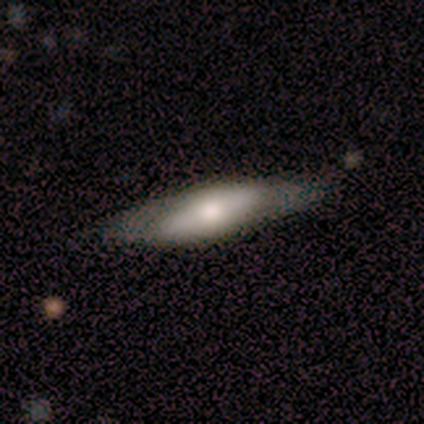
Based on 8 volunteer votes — Q: Smooth or featured?
A: smooth (75%); runner-up: featured or disk (25%)
Q: How rounded?
A: in between (67%); runner-up: cigar-shaped (33%)
Q: Merging?
A: none (75%); runner-up: minor disturbance (12%)